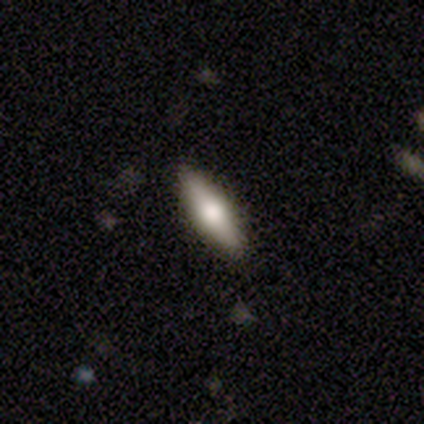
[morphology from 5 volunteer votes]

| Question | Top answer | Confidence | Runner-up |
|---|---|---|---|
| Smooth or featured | smooth | 80% | star or artifact (20%) |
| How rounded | in between | 50% | tied: cigar-shaped (50%) |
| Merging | none | 100% | — |